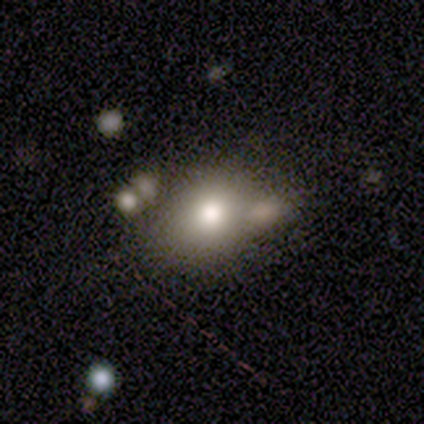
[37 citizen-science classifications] Smooth or featured? 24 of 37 (65%) said smooth. How rounded? 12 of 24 (50%) said in between. Merging? 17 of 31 (55%) said none.